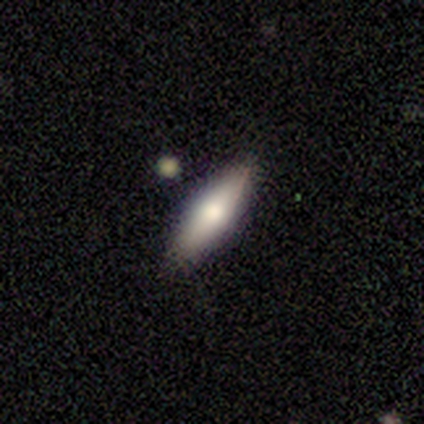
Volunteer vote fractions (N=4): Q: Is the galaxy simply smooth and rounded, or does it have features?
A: smooth — 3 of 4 (75%).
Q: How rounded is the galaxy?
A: in between — 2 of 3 (67%).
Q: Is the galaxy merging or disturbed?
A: none — 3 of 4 (75%).